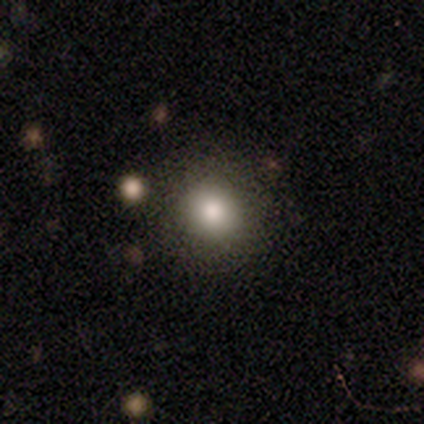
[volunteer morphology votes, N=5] Overall: smooth (80%). How rounded: round (75%). Merging: none (80%).